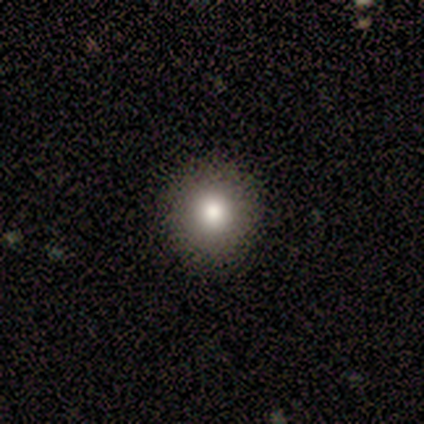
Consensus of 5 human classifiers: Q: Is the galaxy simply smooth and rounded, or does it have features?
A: smooth — 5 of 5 (100%).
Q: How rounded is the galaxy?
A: round — 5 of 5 (100%).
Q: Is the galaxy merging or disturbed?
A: none — 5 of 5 (100%).